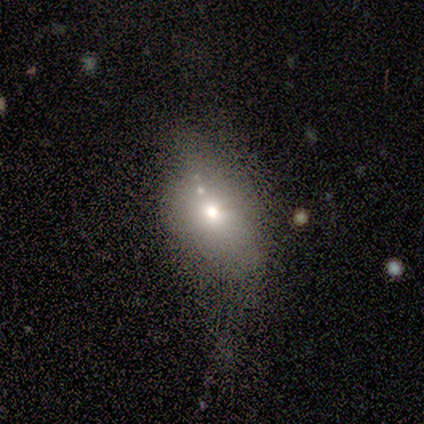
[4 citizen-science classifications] A featured or disk galaxy (75%) with no bar (100%), no spiral arms (100%) and a moderate central bulge (100%). Merging: none (50%, tied with major disturbance).